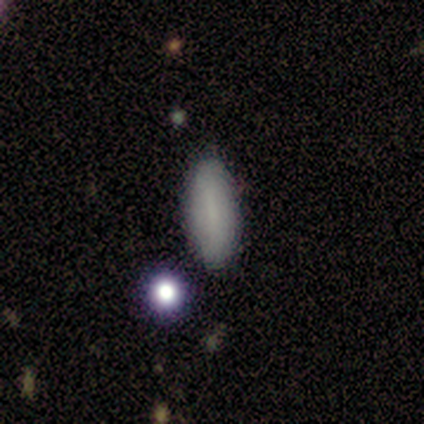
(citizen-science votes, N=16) Smooth or featured?
  - smooth: 69% *
  - featured or disk: 19%
  - star or artifact: 12%
How rounded?
  - in between: 55% *
  - cigar-shaped: 45%
  - round: 0%
Merging?
  - none: 71% *
  - minor disturbance: 21%
  - merger: 7%
  - major disturbance: 0%